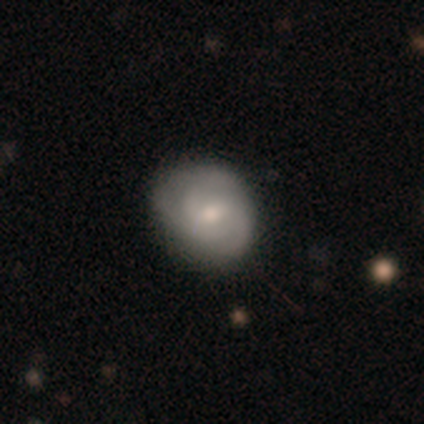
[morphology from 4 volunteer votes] smooth-or-featured: featured or disk: 100% | smooth: 0% | star or artifact: 0%
  disk-edge-on: no: 100% | yes: 0%
    bar: weak: 50% (tied) | no: 50% (tied) | strong: 0%
    has-spiral-arms: yes: 75% | no: 25%
      spiral-winding: medium: 67% | tight: 33% | loose: 0%
      spiral-arm-count: 2: 33% (tied) | 3: 33% (tied) | can't tell: 33% (tied) | 1: 0% | 4: 0% | more than 4: 0%
    bulge-size: moderate: 50% (tied) | small: 50% (tied) | dominant: 0% | large: 0% | none: 0%
  merging: none: 50% | minor disturbance: 25% | major disturbance: 25% | merger: 0%